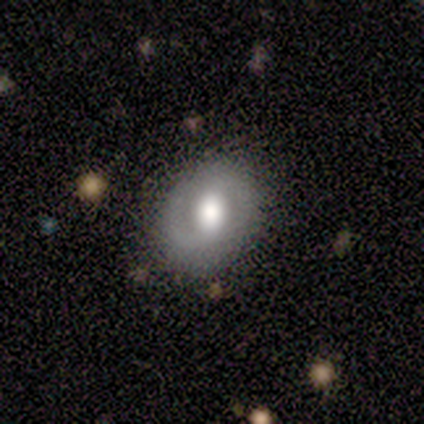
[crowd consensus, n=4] A featured or disk galaxy (75%) with no bar (67%), no spiral arms (67%) and a dominant central bulge (33%, tied with large and moderate).

Vote fractions:
- Smooth or featured? featured or disk: 75% / smooth: 25% / star or artifact: 0%
- Edge-on disk? no: 100% / yes: 0%
- Bar? no: 67% / weak: 33% / strong: 0%
- Spiral arms? no: 67% / yes: 33%
- Bulge size? dominant: 33% (tied) / large: 33% (tied) / moderate: 33% (tied) / small: 0% / none: 0%
- Merging? none: 50% (tied) / minor disturbance: 50% (tied) / major disturbance: 0% / merger: 0%